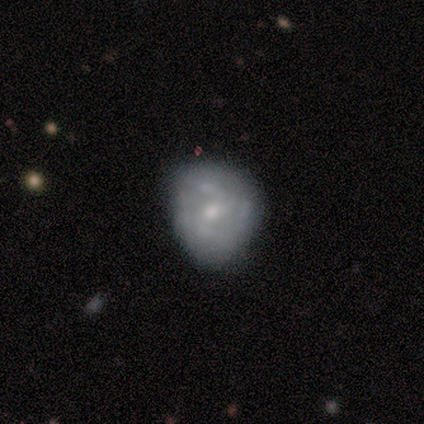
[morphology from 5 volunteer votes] type=featured or disk (60%); edge-on=no (67%); bar=no (100%); spiral arms=yes (50%, tied with no); winding=tight (100%); arm count=can't tell (100%); bulge=small (100%); merging=none (60%).